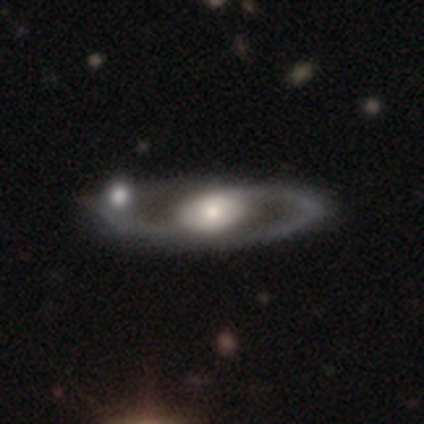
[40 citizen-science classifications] A featured or disk galaxy (78%) with no bar (69%), 2 (63%) medium (47%) spiral arms (66%) and a moderate central bulge (48%).

Vote fractions:
- Smooth or featured? featured or disk: 78% / smooth: 20% / star or artifact: 2%
- Edge-on disk? no: 94% / yes: 6%
- Bar? no: 69% / weak: 21% / strong: 10%
- Spiral arms? yes: 66% / no: 34%
- Spiral winding? medium: 47% / loose: 42% / tight: 11%
- Spiral arm count? 2: 63% / 1: 37% / 3: 0% / 4: 0% / more than 4: 0% / can't tell: 0%
- Bulge size? moderate: 48% / large: 41% / small: 7% / dominant: 3% / none: 0%
- Merging? none: 36% / merger: 26% / minor disturbance: 15% / major disturbance: 3%